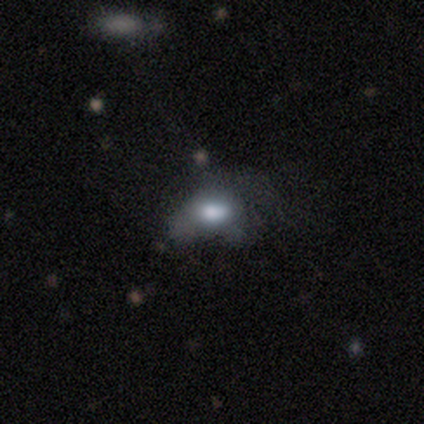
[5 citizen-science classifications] Smooth or featured? 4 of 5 (80%) said smooth. How rounded? 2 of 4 (50%) said in between. Merging? 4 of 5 (80%) said minor disturbance.